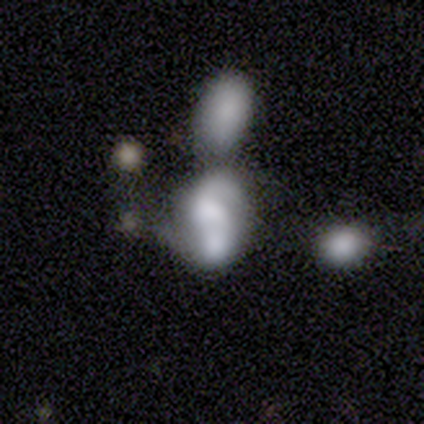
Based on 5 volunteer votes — Overall: smooth (60%; featured or disk 40%). How rounded: in between (100%). Merging: merger (80%).